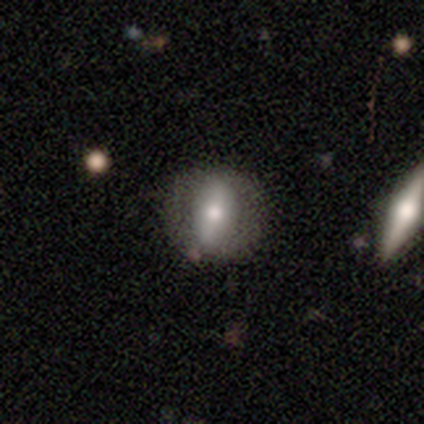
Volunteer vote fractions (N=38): Smooth or featured? 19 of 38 (50%) said smooth. How rounded? 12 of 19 (63%) said in between. Merging? 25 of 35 (71%) said none.